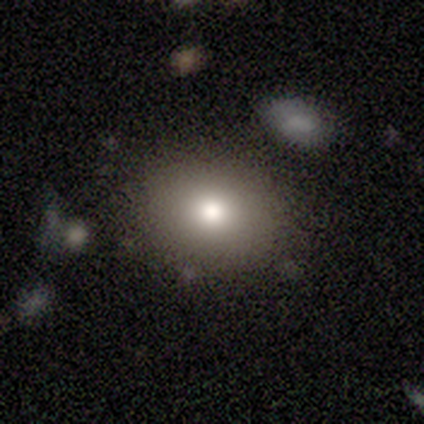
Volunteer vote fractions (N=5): Morphology: type=smooth (100%); roundness=in between (60%); merging=none (100%).